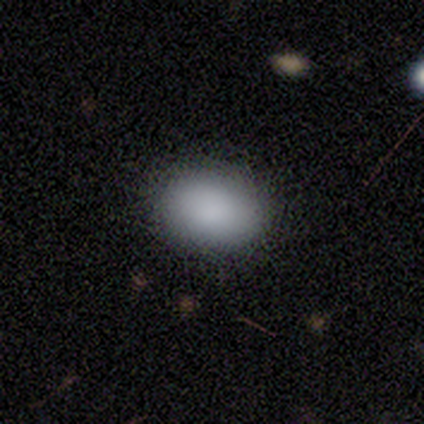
Volunteers were most divided on "merging": none: 71%, minor disturbance: 29%, major disturbance: 0%, merger: 0%. More confident: how rounded — in between (100%); smooth or featured — smooth (88%).